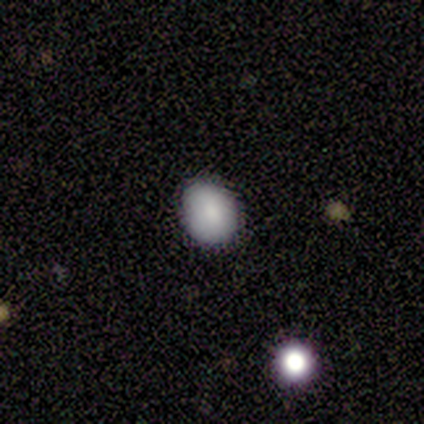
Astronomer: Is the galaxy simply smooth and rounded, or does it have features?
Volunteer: smooth — 100%.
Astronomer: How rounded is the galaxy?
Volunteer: in between — 67%.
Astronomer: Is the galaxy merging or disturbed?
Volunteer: none — 100%.